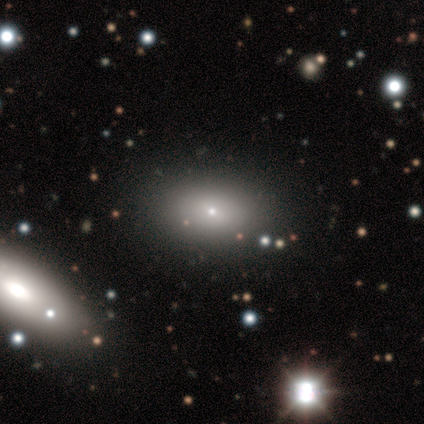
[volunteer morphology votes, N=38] A smooth galaxy with no disk features (55%) that is in between round and cigar-shaped (67%). Merging: none (82%).